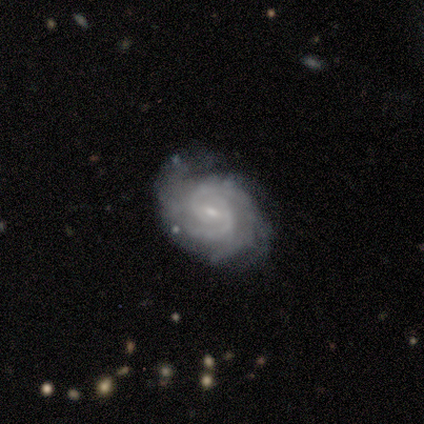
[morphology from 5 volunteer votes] smooth-or-featured: featured or disk: 100% | smooth: 0% | star or artifact: 0%
  disk-edge-on: no: 100% | yes: 0%
    bar: weak: 60% | strong: 20% | no: 20%
    has-spiral-arms: yes: 100% | no: 0%
      spiral-winding: tight: 80% | medium: 20% | loose: 0%
      spiral-arm-count: can't tell: 80% | 2: 20% | 1: 0% | 3: 0% | 4: 0% | more than 4: 0%
    bulge-size: small: 100% | dominant: 0% | large: 0% | moderate: 0% | none: 0%
  merging: none: 80% | merger: 20% | minor disturbance: 0% | major disturbance: 0%